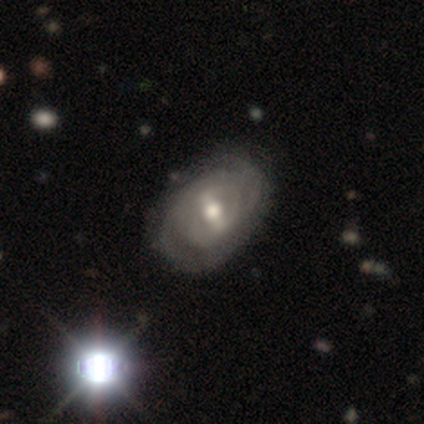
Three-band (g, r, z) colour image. It shows a smooth galaxy with no disk features (50%, tied with featured or disk) that is in between round and cigar-shaped (100%). Merging: none (75%).